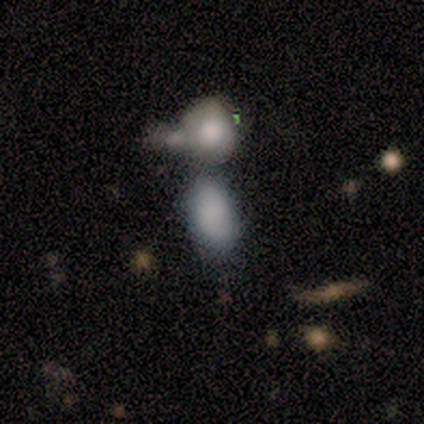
This is clearly a smooth galaxy (100%). How rounded: clearly in between (100%). Merging: possibly none (50%).